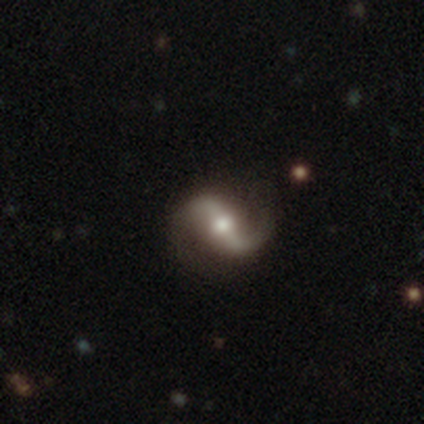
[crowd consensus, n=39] Smooth or featured?
  - featured or disk: 85% *
  - star or artifact: 10%
  - smooth: 5%
Edge-on disk?
  - no: 91% *
  - yes: 9%
Bar?
  - strong: 53% *
  - weak: 30%
  - no: 17%
Spiral arms?
  - yes: 97% *
  - no: 3%
Spiral winding?
  - loose: 55% *
  - medium: 34%
  - tight: 10%
Spiral arm count?
  - 2: 93% *
  - 1: 7%
  - 3: 0%
  - 4: 0%
  - more than 4: 0%
  - can't tell: 0%
Bulge size?
  - moderate: 67% *
  - small: 23%
  - large: 10%
  - dominant: 0%
  - none: 0%
Merging?
  - none: 83% *
  - minor disturbance: 11%
  - major disturbance: 6%
  - merger: 0%